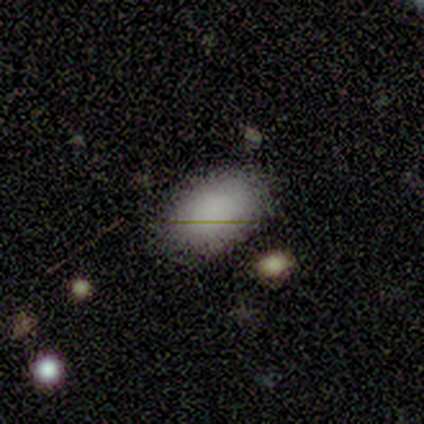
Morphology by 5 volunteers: Overall: smooth (100%). How rounded: in between (100%). Merging: none (80%).